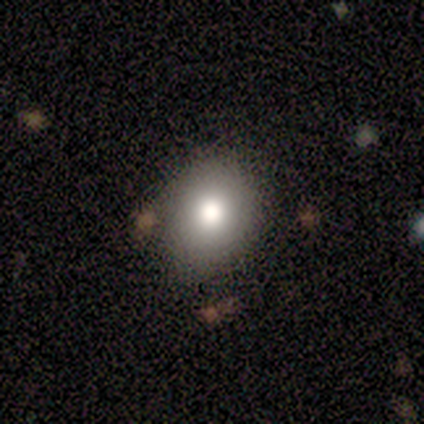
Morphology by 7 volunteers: smooth_or_featured: smooth (p=0.71) [alt: star or artifact p=0.29]
how_rounded: in between (p=0.80) [alt: round p=0.20]
merging: none (p=0.80) [alt: minor disturbance p=0.20]